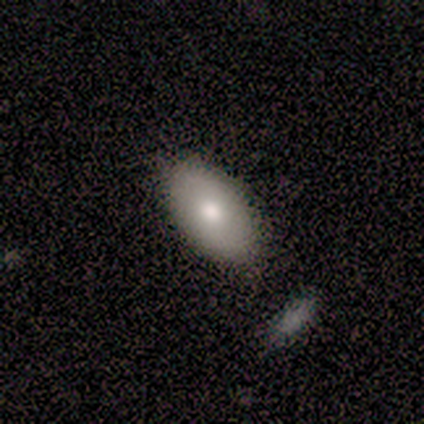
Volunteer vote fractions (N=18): A smooth galaxy with no disk features (78%) that is in between round and cigar-shaped (100%). Merging: none (89%).